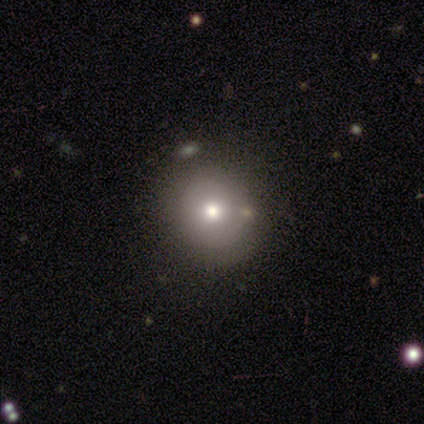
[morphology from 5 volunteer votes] Overall: smooth (60%; featured or disk 40%). How rounded: round (100%). Merging: none (80%).